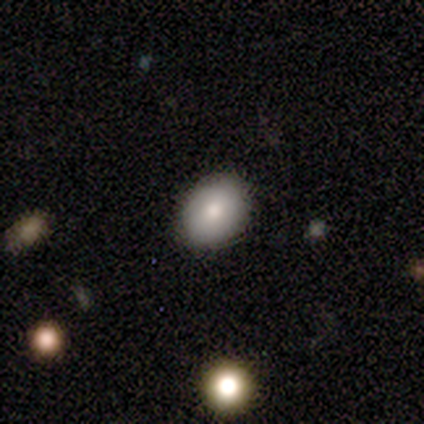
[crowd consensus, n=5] Morphology: type=smooth (100%); roundness=round (60%); merging=none (100%).